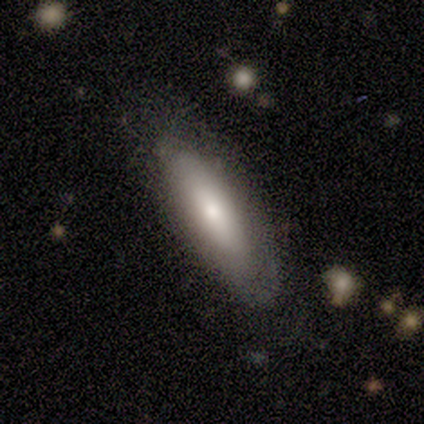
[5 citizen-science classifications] smooth_or_featured: smooth (p=1.00)
how_rounded: in between (p=0.60) [alt: cigar-shaped p=0.40]
merging: none (p=0.80) [alt: minor disturbance p=0.20]